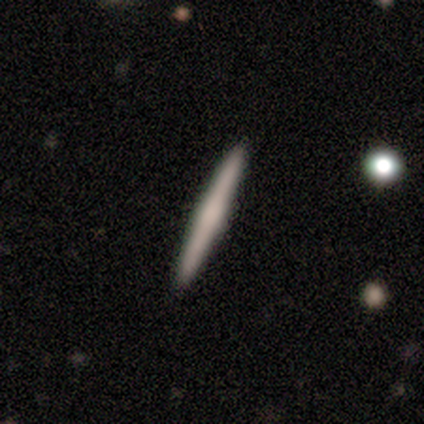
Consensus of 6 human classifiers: Smooth or featured: smooth — 50% (tied with featured or disk — 50%)
How rounded: cigar-shaped — 100%
Merging: none — 100%